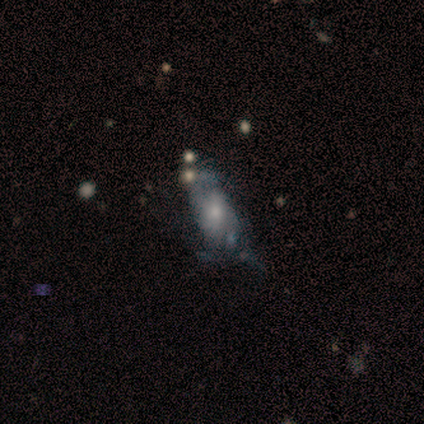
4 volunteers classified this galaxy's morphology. featured or disk 50%, smooth 25%, star or artifact 25%. Down the decision tree: edge-on disk — no (100%); bar — no (100%); spiral arms — no (100%); bulge size — moderate (50%, tied with small); merging — major disturbance (67%).